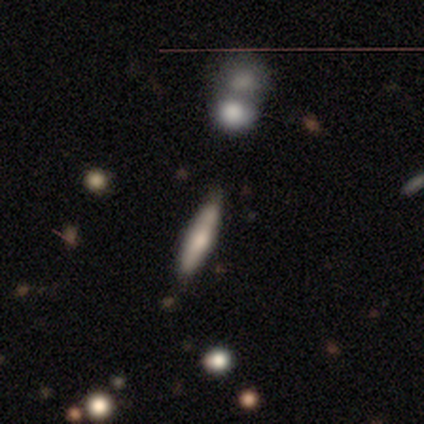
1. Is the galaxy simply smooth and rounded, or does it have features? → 71% smooth, 14% featured or disk, 14% star or artifact.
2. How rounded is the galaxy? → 80% cigar-shaped, 20% in between, 0% round.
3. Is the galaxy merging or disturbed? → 83% none, 17% minor disturbance, 0% major disturbance, 0% merger.